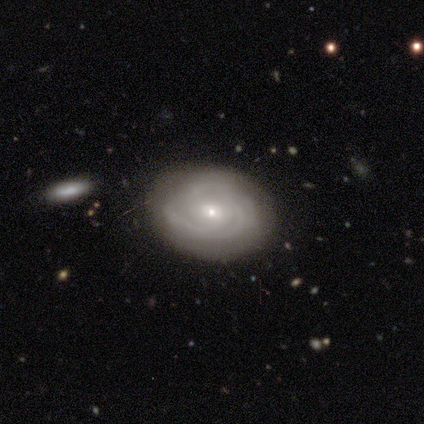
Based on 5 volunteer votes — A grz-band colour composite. It shows a featured or disk galaxy (100%) with no bar (80%), 3 (50%, tied with can't tell) tight (50%, tied with medium) spiral arms (80%) and a small central bulge (100%). Merging: none (100%).